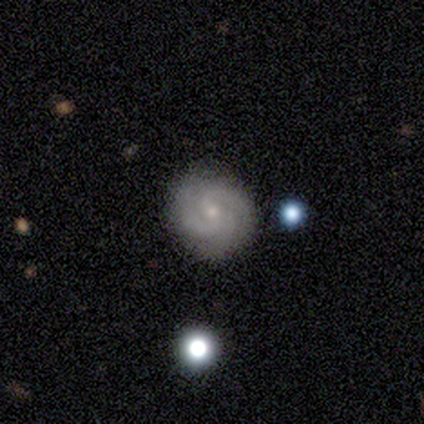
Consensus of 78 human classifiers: Smooth or featured? featured or disk (86%)
Edge-on disk? no (100%)
Bar? no (63%)
Spiral arms? yes (100%)
Spiral winding? tight (57%)
Spiral arm count? 3 (54%)
Bulge size? small (72%)
Merging? none (93%)